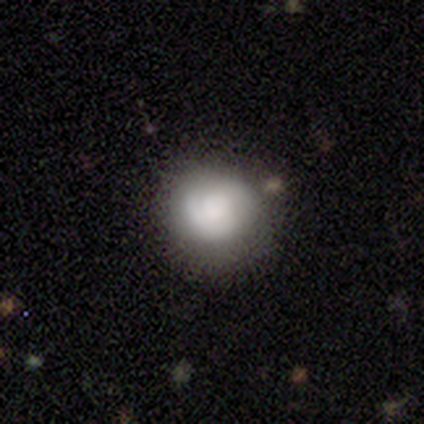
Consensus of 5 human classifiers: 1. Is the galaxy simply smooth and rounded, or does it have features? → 80% smooth, 20% featured or disk, 0% star or artifact.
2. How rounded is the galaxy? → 75% round, 25% in between, 0% cigar-shaped.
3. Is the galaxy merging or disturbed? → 60% none, 40% minor disturbance, 0% major disturbance, 0% merger.